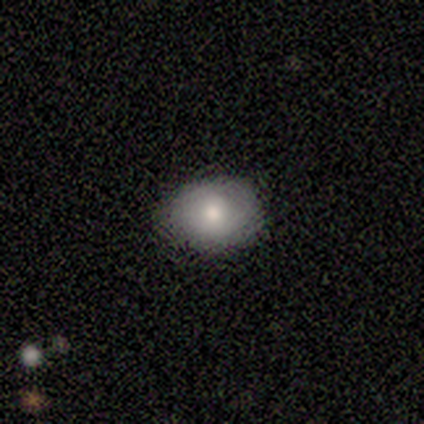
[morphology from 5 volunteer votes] Smooth or featured? smooth (100%)
How rounded? in between (80%)
Merging? none (80%)